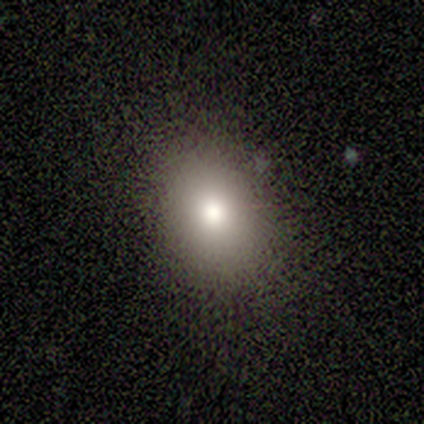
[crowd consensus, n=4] Smooth or featured?
  - smooth: 75% *
  - star or artifact: 25%
  - featured or disk: 0%
How rounded?
  - in between: 67% *
  - round: 33%
  - cigar-shaped: 0%
Merging?
  - none: 100% *
  - minor disturbance: 0%
  - major disturbance: 0%
  - merger: 0%